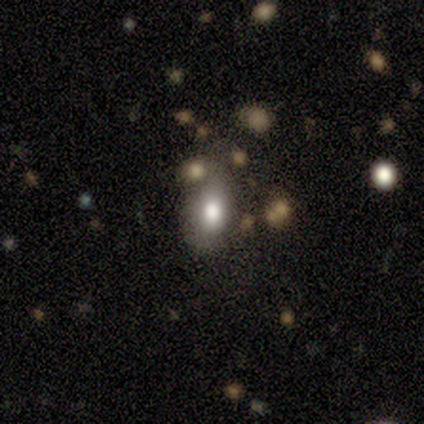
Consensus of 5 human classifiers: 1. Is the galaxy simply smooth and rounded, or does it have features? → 60% smooth, 40% star or artifact, 0% featured or disk.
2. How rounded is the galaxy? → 67% in between, 33% round, 0% cigar-shaped.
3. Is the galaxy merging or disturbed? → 67% none, 33% major disturbance, 0% minor disturbance, 0% merger.